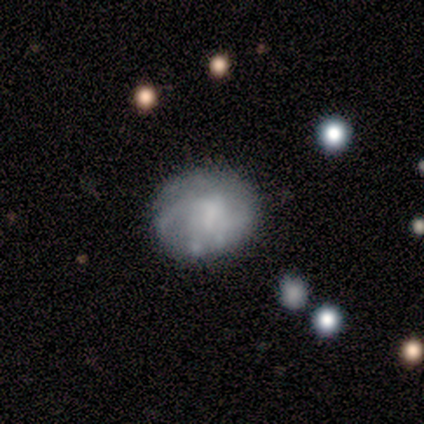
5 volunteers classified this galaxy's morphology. Smooth or featured: featured or disk — 100%
Edge-on disk: no — 100%
Bar: weak — 40% (tied with no — 40%)
Spiral arms: yes — 100%
Spiral winding: tight — 40% (tied with loose — 40%)
Spiral arm count: 2 — 60% (3 — 20%)
Bulge size: moderate — 40% (tied with none — 40%)
Merging: none — 60% (minor disturbance — 40%)